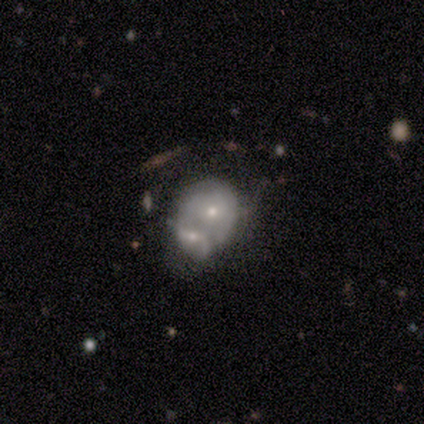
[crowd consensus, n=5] A featured or disk galaxy (80%) with no bar (100%), 2 (50%, tied with can't tell) medium (100%) spiral arms (50%, tied with no) and a moderate central bulge (50%, tied with small).

Vote fractions:
- Smooth or featured? featured or disk: 80% / smooth: 20% / star or artifact: 0%
- Edge-on disk? no: 100% / yes: 0%
- Bar? no: 100% / strong: 0% / weak: 0%
- Spiral arms? yes: 50% (tied) / no: 50% (tied)
- Spiral winding? medium: 100% / tight: 0% / loose: 0%
- Spiral arm count? 2: 50% (tied) / can't tell: 50% (tied) / 1: 0% / 3: 0% / 4: 0% / more than 4: 0%
- Bulge size? moderate: 50% (tied) / small: 50% (tied) / dominant: 0% / large: 0% / none: 0%
- Merging? merger: 100% / none: 0% / minor disturbance: 0% / major disturbance: 0%